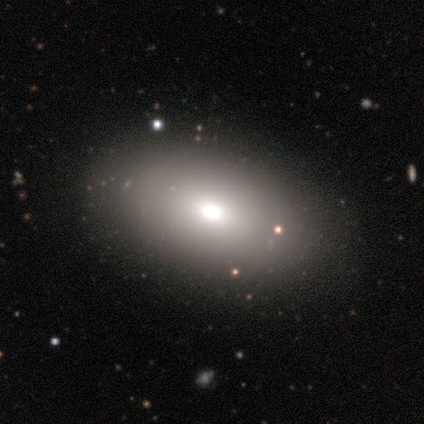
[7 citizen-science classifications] Smooth or featured?
  - smooth: 57% *
  - star or artifact: 29%
  - featured or disk: 14%
How rounded?
  - in between: 100% *
  - round: 0%
  - cigar-shaped: 0%
Merging?
  - none: 60% *
  - minor disturbance: 40%
  - major disturbance: 0%
  - merger: 0%